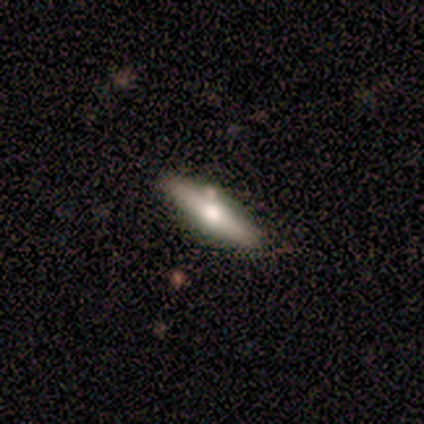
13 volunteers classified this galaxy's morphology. smooth-or-featured: featured or disk: 85% | smooth: 15% | star or artifact: 0%
  disk-edge-on: yes: 91% | no: 9%
    edge-on-bulge: rounded: 80% | boxy: 20% | none: 0%
  merging: none: 92% | merger: 8% | minor disturbance: 0% | major disturbance: 0%